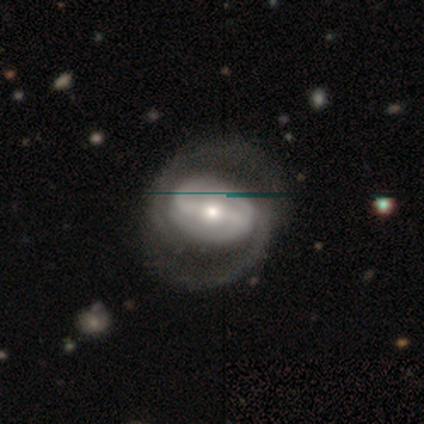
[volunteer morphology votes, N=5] Overall: featured or disk (100%). Edge-on disk: no (100%). Bar: strong (60%; weak 40%). Spiral arms: yes (100%). Spiral arm count: 2 (80%). Spiral winding: medium (40%, tied with loose). Bulge size: moderate (100%). Merging: none (100%).